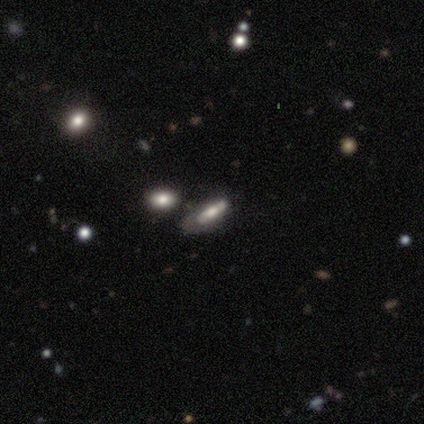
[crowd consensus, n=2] Smooth or featured?
  - smooth: 50% * (tied)
  - featured or disk: 50% * (tied)
  - star or artifact: 0%
How rounded?
  - cigar-shaped: 100% *
  - round: 0%
  - in between: 0%
Merging?
  - none: 50% * (tied)
  - major disturbance: 50% * (tied)
  - minor disturbance: 0%
  - merger: 0%